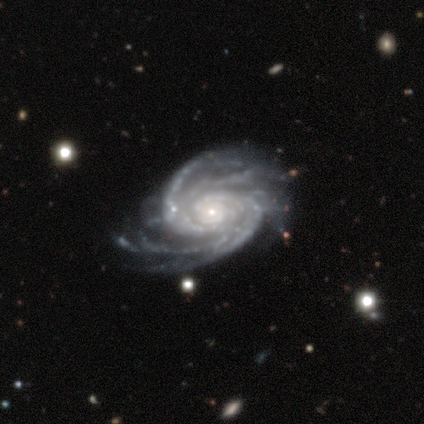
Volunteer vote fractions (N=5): featured or disk 100%, smooth 0%, star or artifact 0%. Down the decision tree: edge-on disk — no (100%); bar — no (60%); spiral arms — yes (100%); spiral arm count — 4 (80%); spiral winding — tight (80%); bulge size — small (100%); merging — none (40%).